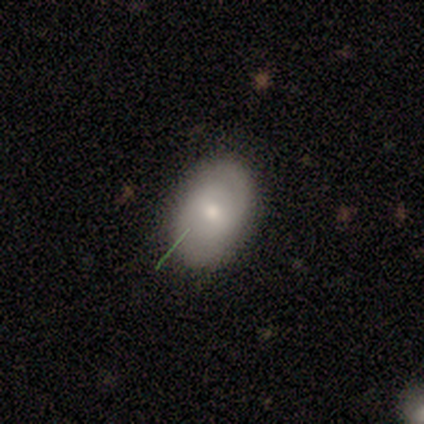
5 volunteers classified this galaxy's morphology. Smooth or featured? 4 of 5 (80%) said smooth. How rounded? 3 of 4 (75%) said in between. Merging? 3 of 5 (60%) said none.